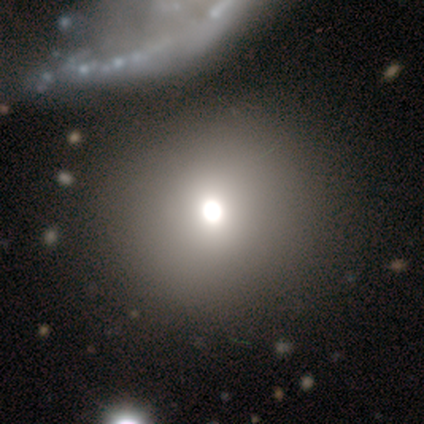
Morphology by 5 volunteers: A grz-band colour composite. It shows a smooth galaxy with no disk features (100%) that is round (100%). Merging: none (80%).